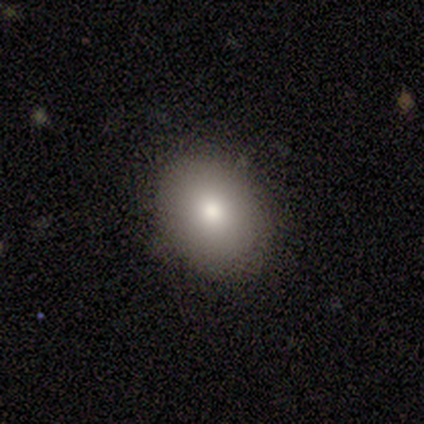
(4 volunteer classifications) This is clearly a smooth galaxy (100%). How rounded: likely round (75%). Merging: clearly none (100%).